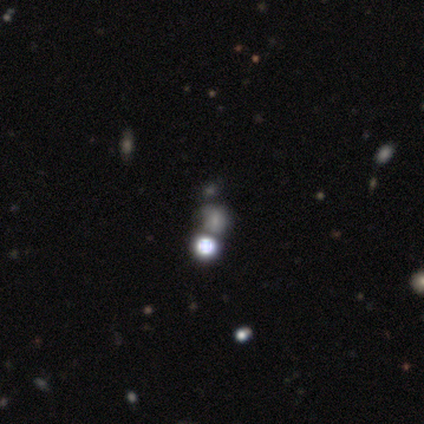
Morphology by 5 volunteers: featured or disk 80%, star or artifact 20%, smooth 0%. Down the decision tree: edge-on disk — no (100%); bar — no (75%); spiral arms — no (100%); bulge size — dominant (25%, tied with moderate, small and none); merging — none (50%).